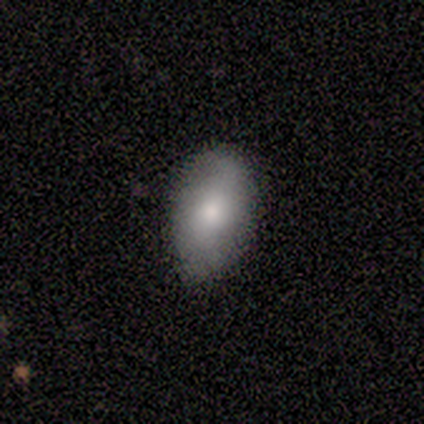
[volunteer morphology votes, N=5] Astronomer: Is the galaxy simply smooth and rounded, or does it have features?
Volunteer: smooth — 80%.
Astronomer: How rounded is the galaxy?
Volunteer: in between — 100%.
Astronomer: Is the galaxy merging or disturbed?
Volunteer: none — 100%.